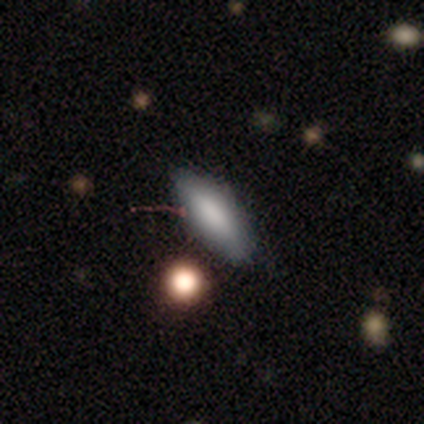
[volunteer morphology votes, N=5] A smooth galaxy with no disk features (100%) that is in between round and cigar-shaped (40%, tied with cigar-shaped). Merging: none (100%).